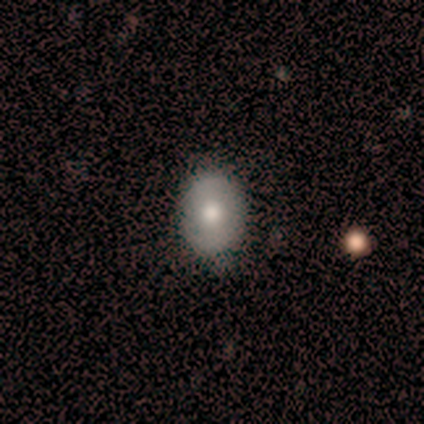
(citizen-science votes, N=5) smooth_or_featured: smooth (p=0.40) [tied with: star or artifact p=0.40]
how_rounded: round (p=0.50) [tied with: in between p=0.50]
merging: none (p=1.00)